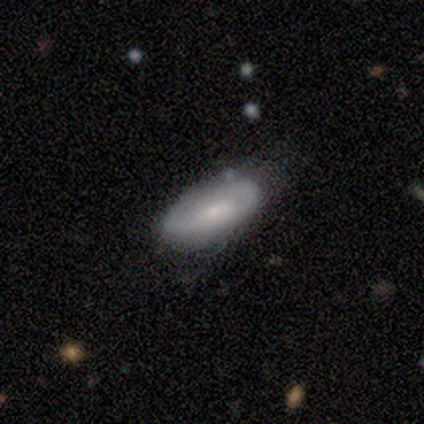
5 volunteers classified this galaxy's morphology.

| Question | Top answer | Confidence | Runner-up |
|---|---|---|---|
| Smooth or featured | featured or disk | 60% | smooth (40%) |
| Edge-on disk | no | 100% | — |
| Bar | no | 67% | weak (33%) |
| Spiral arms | no | 67% | yes (33%) |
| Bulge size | moderate | 67% | small (33%) |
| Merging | none | 80% | minor disturbance (20%) |